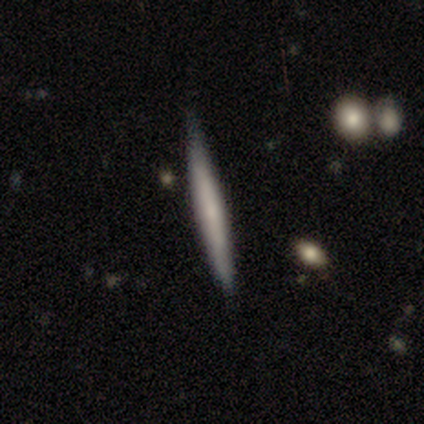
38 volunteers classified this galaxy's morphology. smooth_or_featured: featured or disk (p=0.53) [alt: smooth p=0.47]
disk_edge_on: yes (p=0.95) [alt: no p=0.05]
edge_on_bulge: none (p=0.47) [tied with: rounded p=0.47]
merging: none (p=0.53) [alt: minor disturbance p=0.08]